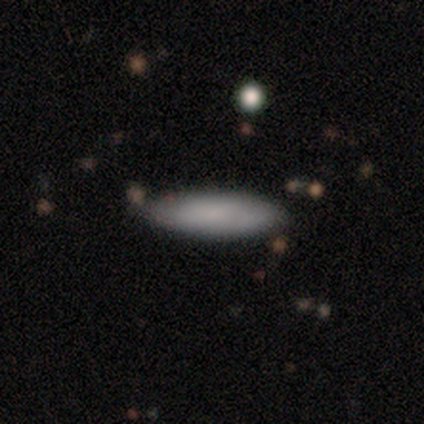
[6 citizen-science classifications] A smooth galaxy with no disk features (83%) that is in between round and cigar-shaped (80%).

Vote fractions:
- Smooth or featured? smooth: 83% / featured or disk: 17% / star or artifact: 0%
- How rounded? in between: 80% / cigar-shaped: 20% / round: 0%
- Merging? none: 67% / minor disturbance: 33% / major disturbance: 0% / merger: 0%